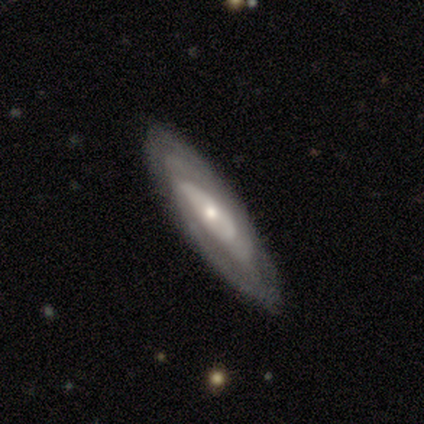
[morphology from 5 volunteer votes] Smooth or featured?
  - featured or disk: 80% *
  - smooth: 20%
  - star or artifact: 0%
Edge-on disk?
  - no: 75% *
  - yes: 25%
Bar?
  - no: 100% *
  - strong: 0%
  - weak: 0%
Spiral arms?
  - yes: 67% *
  - no: 33%
Spiral winding?
  - tight: 100% *
  - medium: 0%
  - loose: 0%
Spiral arm count?
  - 2: 50% * (tied)
  - can't tell: 50% * (tied)
  - 1: 0%
  - 3: 0%
  - 4: 0%
  - more than 4: 0%
Bulge size?
  - small: 100% *
  - dominant: 0%
  - large: 0%
  - moderate: 0%
  - none: 0%
Merging?
  - none: 100% *
  - minor disturbance: 0%
  - major disturbance: 0%
  - merger: 0%